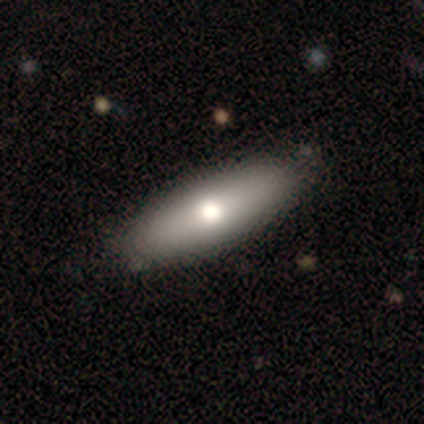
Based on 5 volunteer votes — A smooth galaxy with no disk features (60%) that is in between round and cigar-shaped (100%).

Vote fractions:
- Smooth or featured? smooth: 60% / featured or disk: 20% / star or artifact: 20%
- How rounded? in between: 100% / round: 0% / cigar-shaped: 0%
- Merging? none: 100% / minor disturbance: 0% / major disturbance: 0% / merger: 0%